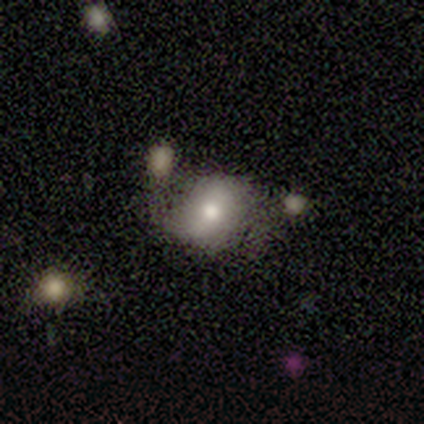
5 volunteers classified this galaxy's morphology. Overall: smooth (80%). How rounded: round (50%, tied with in between). Merging: none (60%; minor disturbance 20%).